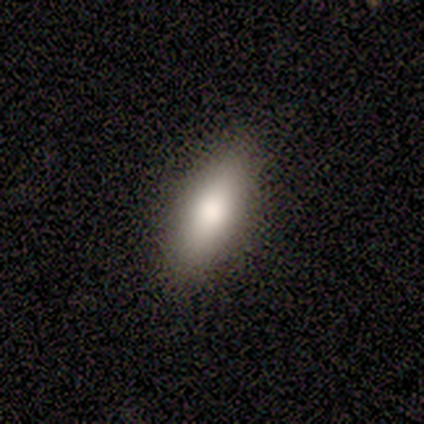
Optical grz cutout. It shows a smooth galaxy with no disk features (86%) that is in between round and cigar-shaped (83%). Merging: none (100%).